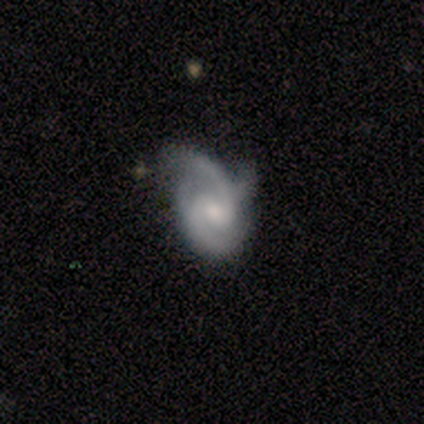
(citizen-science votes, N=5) Overall: featured or disk (100%). Edge-on disk: no (100%). Bar: no (60%; weak 40%). Spiral arms: yes (100%). Spiral arm count: 2 (80%). Spiral winding: medium (60%; tight 40%). Bulge size: small (60%; moderate 40%). Merging: none (60%; minor disturbance 20%).